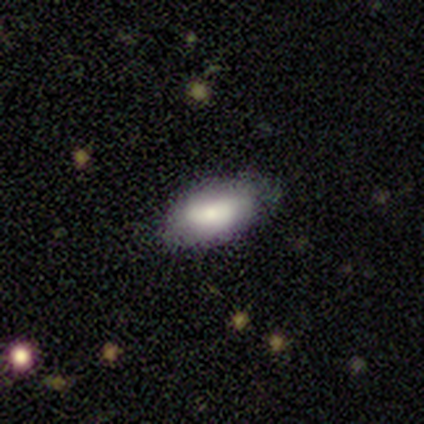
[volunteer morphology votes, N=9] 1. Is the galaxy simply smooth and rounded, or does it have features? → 89% smooth, 11% featured or disk, 0% star or artifact.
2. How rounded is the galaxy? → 88% in between, 12% cigar-shaped, 0% round.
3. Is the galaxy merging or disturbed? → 78% none, 11% minor disturbance, 11% major disturbance, 0% merger.